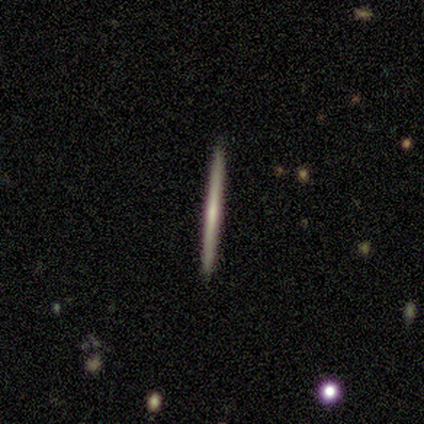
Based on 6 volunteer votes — smooth_or_featured: featured or disk (p=0.83) [alt: smooth p=0.17]
disk_edge_on: yes (p=1.00)
edge_on_bulge: none (p=0.60) [alt: rounded p=0.40]
merging: none (p=1.00)